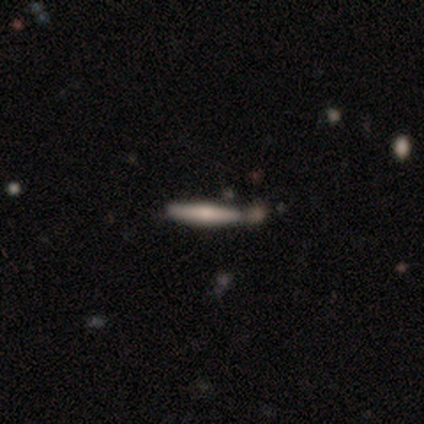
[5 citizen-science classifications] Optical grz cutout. It shows a smooth galaxy with no disk features (80%) that is cigar-shaped (100%). Merging: none (60%).